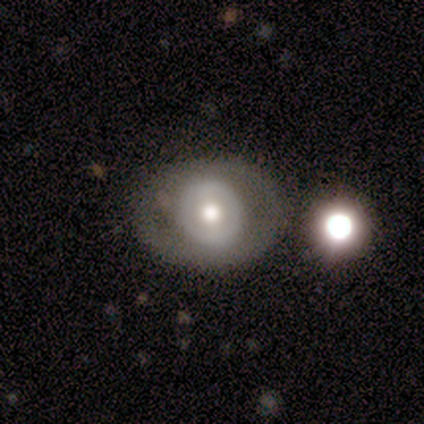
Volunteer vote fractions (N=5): smooth_or_featured: smooth (p=0.60) [alt: featured or disk p=0.20]
how_rounded: in between (p=0.67) [alt: round p=0.33]
merging: none (p=0.50) [alt: minor disturbance p=0.25]